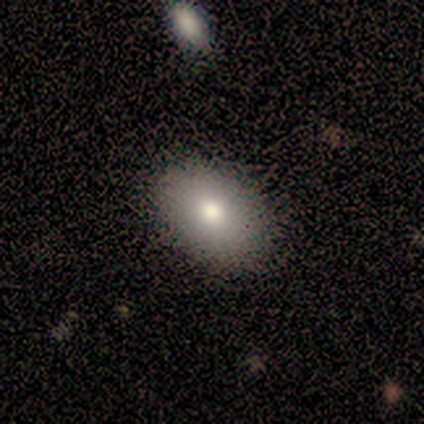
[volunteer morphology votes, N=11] A smooth galaxy with no disk features (91%) that is in between round and cigar-shaped (80%).

Vote fractions:
- Smooth or featured? smooth: 91% / star or artifact: 9% / featured or disk: 0%
- How rounded? in between: 80% / round: 20% / cigar-shaped: 0%
- Merging? none: 80% / minor disturbance: 20% / major disturbance: 0% / merger: 0%